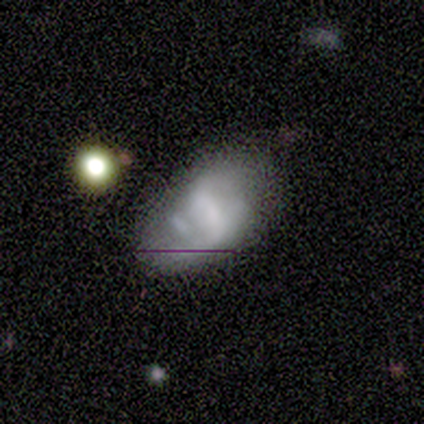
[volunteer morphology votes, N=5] type=featured or disk (60%); edge-on=no (100%); bar=strong (33%, tied with weak and no); spiral arms=no (67%); bulge=none (67%); merging=none (60%).